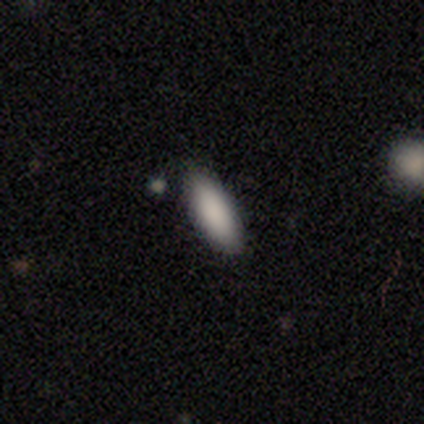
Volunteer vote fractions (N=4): Morphology: type=smooth (100%); roundness=in between (75%); merging=none (100%).